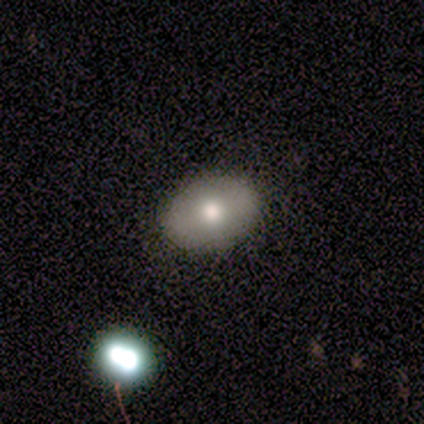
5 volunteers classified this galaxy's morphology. Volunteers were most divided on "smooth or featured": smooth: 80%, featured or disk: 20%, star or artifact: 0%. More confident: how rounded — in between (100%); merging — none (80%).